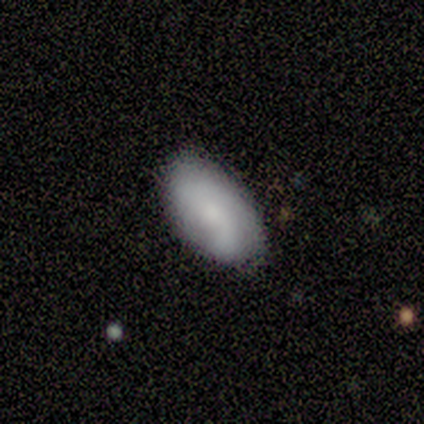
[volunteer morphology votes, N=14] Q: Smooth or featured?
A: smooth (86%); runner-up: featured or disk (14%)
Q: How rounded?
A: in between (100%)
Q: Merging?
A: none (57%); runner-up: minor disturbance (29%)